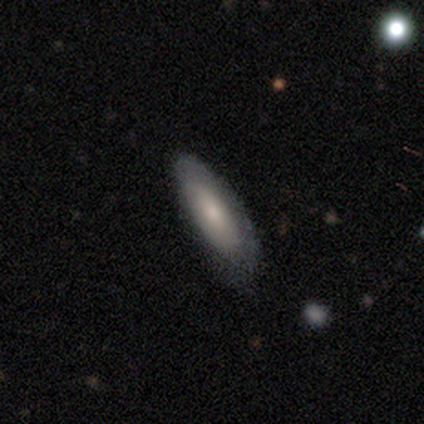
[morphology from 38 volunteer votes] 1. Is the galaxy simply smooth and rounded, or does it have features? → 71% smooth, 29% featured or disk, 0% star or artifact.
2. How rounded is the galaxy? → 52% cigar-shaped, 44% in between, 4% round.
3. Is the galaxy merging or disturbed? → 74% none, 21% minor disturbance, 5% major disturbance, 0% merger.